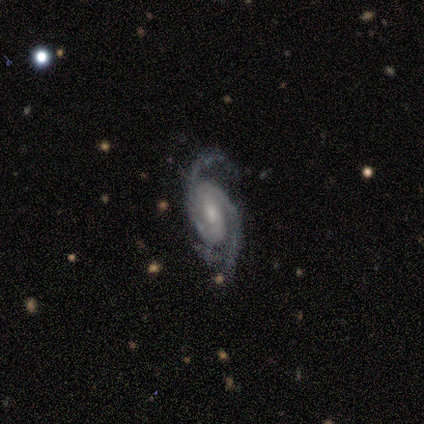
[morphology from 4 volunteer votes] Smooth or featured: featured or disk — 100%
Edge-on disk: no — 100%
Bar: weak — 75% (strong — 25%)
Spiral arms: yes — 100%
Spiral winding: medium — 100%
Spiral arm count: 2 — 100%
Bulge size: moderate — 50% (small — 25%)
Merging: none — 75% (minor disturbance — 25%)